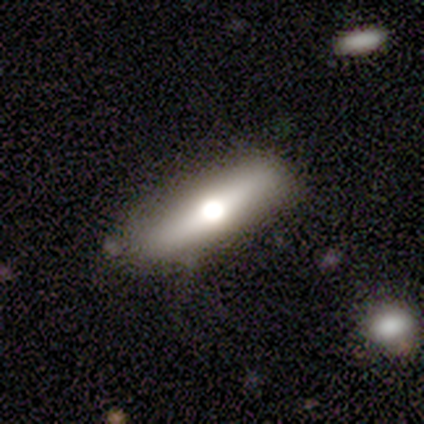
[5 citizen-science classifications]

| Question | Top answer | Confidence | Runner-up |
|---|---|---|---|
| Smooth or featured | featured or disk | 60% | smooth (40%) |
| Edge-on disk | yes | 100% | — |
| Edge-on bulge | rounded | 100% | — |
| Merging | none | 100% | — |